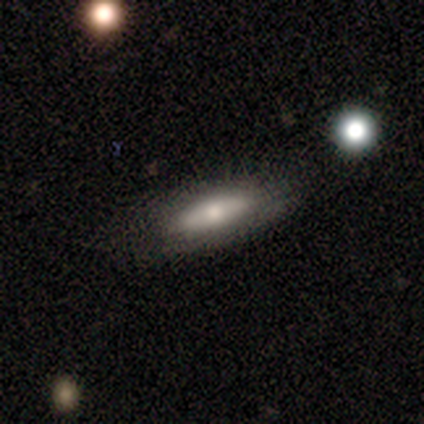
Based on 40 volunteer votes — Smooth or featured: smooth — 60% (featured or disk — 30%)
How rounded: in between — 71% (cigar-shaped — 29%)
Merging: none — 69% (minor disturbance — 31%)